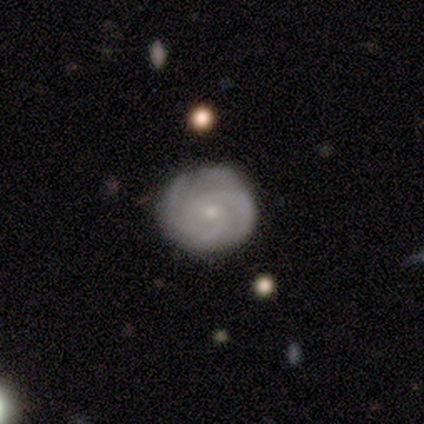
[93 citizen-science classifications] Q: Smooth or featured?
A: featured or disk (81%); runner-up: smooth (14%)
Q: Edge-on disk?
A: no (99%); runner-up: yes (1%)
Q: Bar?
A: no (85%); runner-up: weak (12%)
Q: Spiral arms?
A: yes (95%); runner-up: no (5%)
Q: Spiral winding?
A: tight (77%); runner-up: medium (20%)
Q: Spiral arm count?
A: 3 (30%); runner-up: 2 (29%)
Q: Bulge size?
A: small (76%); runner-up: moderate (23%)
Q: Merging?
A: none (80%); runner-up: minor disturbance (17%)